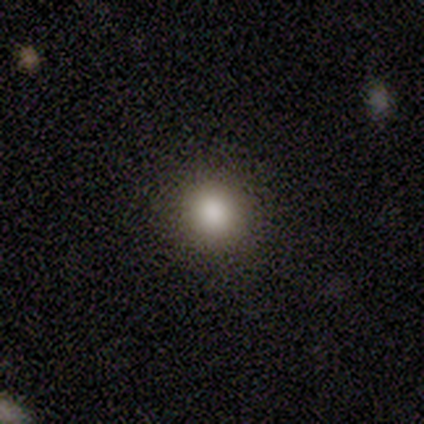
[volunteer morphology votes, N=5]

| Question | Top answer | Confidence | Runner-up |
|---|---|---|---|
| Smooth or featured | smooth | 80% | featured or disk (20%) |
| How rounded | round | 100% | — |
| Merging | none | 80% | minor disturbance (20%) |